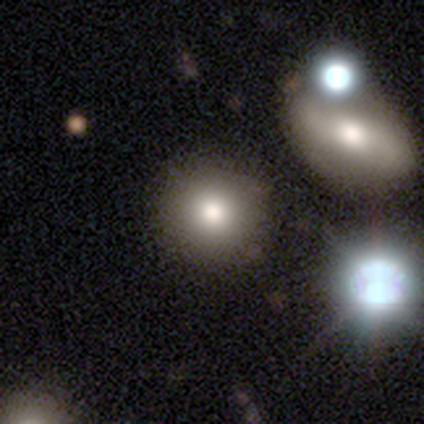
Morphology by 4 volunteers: smooth-or-featured: smooth: 75% | featured or disk: 25% | star or artifact: 0%
  how-rounded: round: 100% | in between: 0% | cigar-shaped: 0%
  merging: none: 50% | major disturbance: 25% | merger: 25% | minor disturbance: 0%